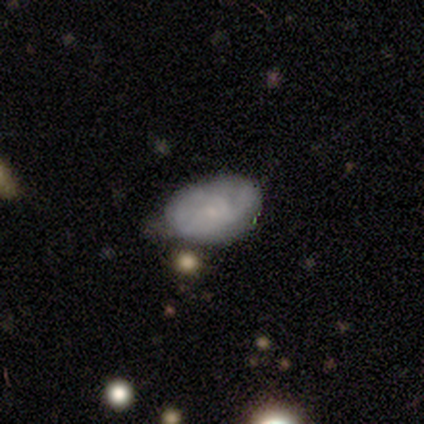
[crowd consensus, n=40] Q: Smooth or featured?
A: smooth (55%); runner-up: featured or disk (40%)
Q: How rounded?
A: in between (86%); runner-up: round (14%)
Q: Merging?
A: none (45%); runner-up: minor disturbance (32%)